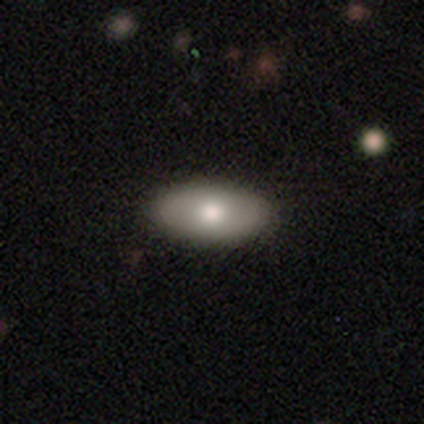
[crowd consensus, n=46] smooth 72%, featured or disk 26%, star or artifact 2%. Down the decision tree: how rounded — in between (91%); merging — none (96%).